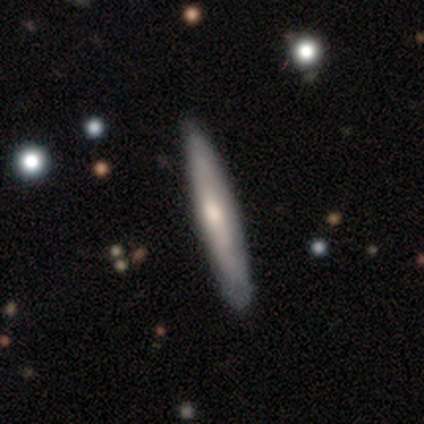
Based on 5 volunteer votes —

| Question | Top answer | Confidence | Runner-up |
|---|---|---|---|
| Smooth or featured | smooth | 60% | featured or disk (40%) |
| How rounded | cigar-shaped | 100% | — |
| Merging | none | 100% | — |